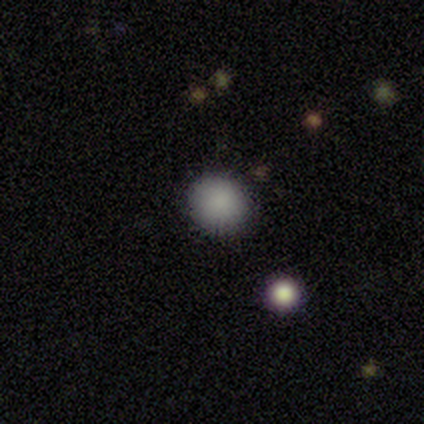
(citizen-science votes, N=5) smooth_or_featured: smooth (p=0.80) [alt: star or artifact p=0.20]
how_rounded: round (p=1.00)
merging: none (p=1.00)